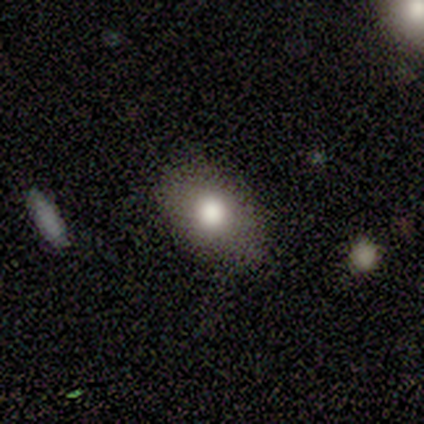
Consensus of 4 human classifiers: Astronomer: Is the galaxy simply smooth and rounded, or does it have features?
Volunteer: smooth — 100%.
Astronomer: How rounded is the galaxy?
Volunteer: in between — 75%.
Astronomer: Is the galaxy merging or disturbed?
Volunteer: none — 100%.